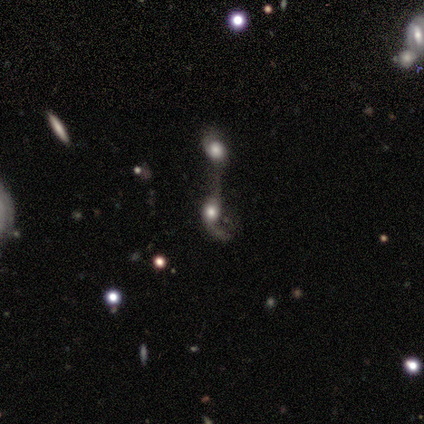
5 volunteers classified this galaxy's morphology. This is likely a featured or disk galaxy (60%). It is clearly not viewed edge-on (100%). Bar: clearly no (100%). Spiral arm pattern: clearly no (100%). Central bulge: likely large (67%). Merging: possibly merger (50%).